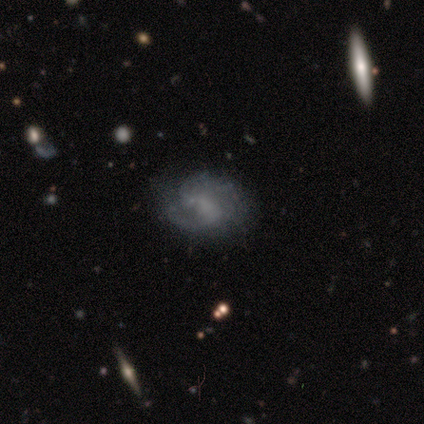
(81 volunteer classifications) featured or disk 69%, smooth 26%, star or artifact 5%. Down the decision tree: edge-on disk — no (98%); bar — no (51%); spiral arms — yes (80%); spiral arm count — 2 (66%); spiral winding — medium (43%); bulge size — none (65%); merging — none (64%).